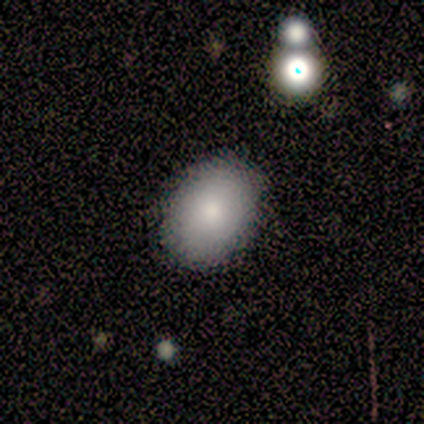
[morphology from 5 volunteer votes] A smooth galaxy with no disk features (80%) that is in between round and cigar-shaped (75%). Merging: none (100%).